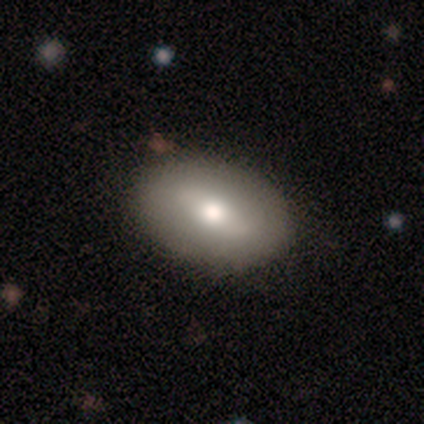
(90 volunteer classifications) A smooth galaxy with no disk features (60%) that is in between round and cigar-shaped (85%).

Vote fractions:
- Smooth or featured? smooth: 60% / featured or disk: 31% / star or artifact: 9%
- How rounded? in between: 85% / round: 11% / cigar-shaped: 4%
- Merging? none: 85% / minor disturbance: 11% / merger: 2% / major disturbance: 1%